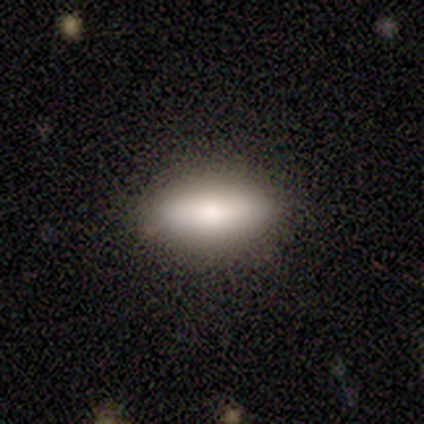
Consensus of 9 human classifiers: Smooth or featured: smooth — 100%
How rounded: in between — 67% (cigar-shaped — 33%)
Merging: none — 100%